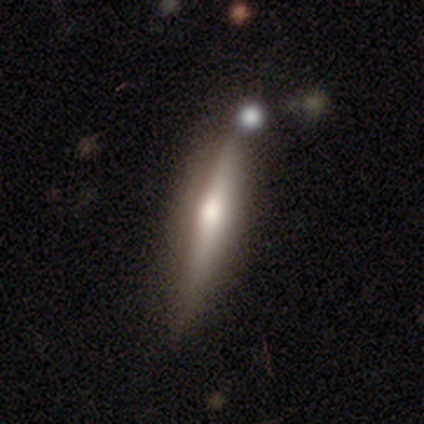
Q: Smooth or featured?
A: featured or disk (67%); runner-up: smooth (33%)
Q: Edge-on disk?
A: yes (50%); tied with: no (50%)
Q: Edge-on bulge?
A: none (100%)
Q: Merging?
A: none (67%); runner-up: minor disturbance (33%)